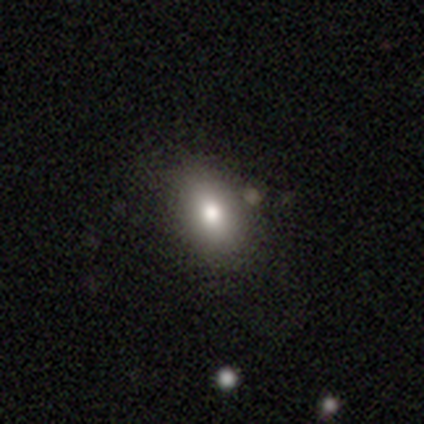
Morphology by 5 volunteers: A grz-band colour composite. It shows a smooth galaxy with no disk features (60%) that is in between round and cigar-shaped (67%). Merging: none (100%).